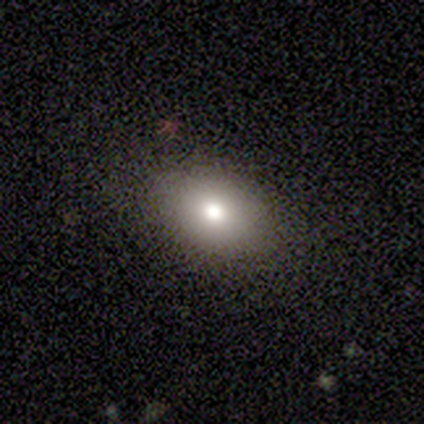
This appears to be a smooth galaxy with no disk features (67%) that is round (50%, tied with in between). Merging: none (67%).